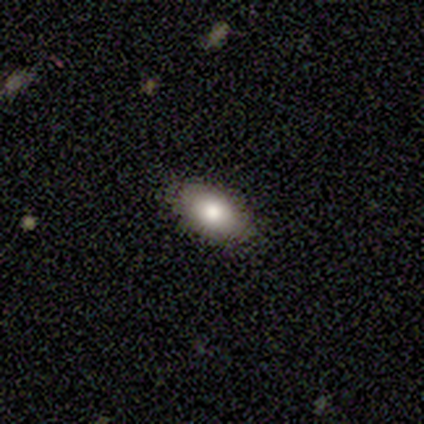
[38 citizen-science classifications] Smooth or featured? 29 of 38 (76%) said smooth. How rounded? 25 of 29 (86%) said in between. Merging? 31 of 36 (86%) said none.